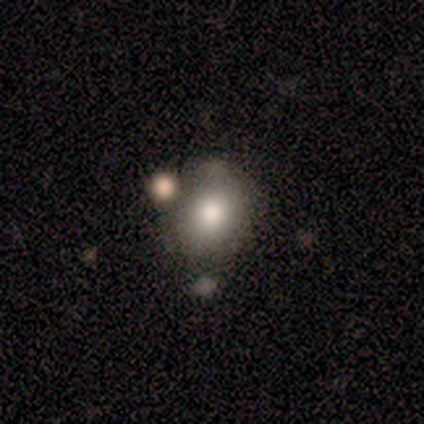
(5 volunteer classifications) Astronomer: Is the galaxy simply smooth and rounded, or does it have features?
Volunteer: smooth — 100%.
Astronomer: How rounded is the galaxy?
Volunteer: round — 40%, tied with in between at 40%.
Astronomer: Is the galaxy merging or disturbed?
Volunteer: none — 60%.